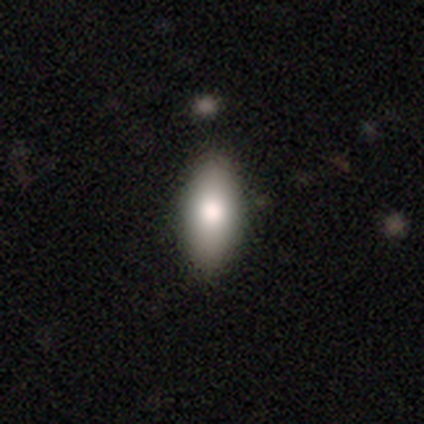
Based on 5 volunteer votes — Smooth or featured: smooth — 80% (featured or disk — 20%)
How rounded: in between — 50% (tied with cigar-shaped — 50%)
Merging: none — 80% (minor disturbance — 20%)